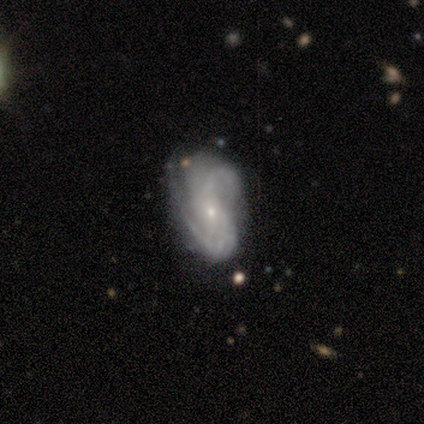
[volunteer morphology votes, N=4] Volunteers were most divided on "smooth or featured" (2-way tie): smooth: 50%, featured or disk: 50%, star or artifact: 0%; "how rounded" (2-way tie): round: 50%, in between: 50%, cigar-shaped: 0%. More confident: merging — minor disturbance (50%).